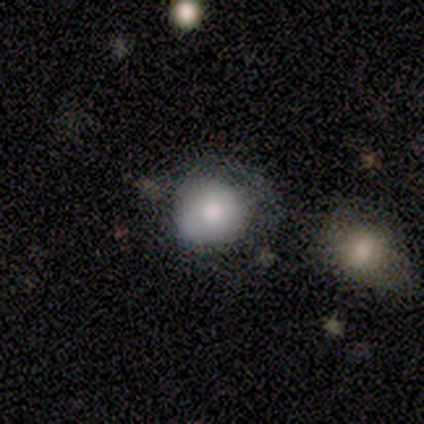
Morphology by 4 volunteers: A smooth galaxy with no disk features (75%) that is round (67%).

Vote fractions:
- Smooth or featured? smooth: 75% / featured or disk: 25% / star or artifact: 0%
- How rounded? round: 67% / in between: 33% / cigar-shaped: 0%
- Merging? none: 50% (tied) / major disturbance: 50% (tied) / minor disturbance: 0% / merger: 0%